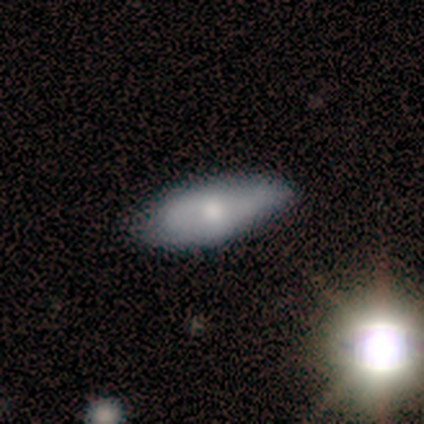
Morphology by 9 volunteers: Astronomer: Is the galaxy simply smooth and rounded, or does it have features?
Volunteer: smooth — 78%.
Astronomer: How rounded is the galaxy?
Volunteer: in between — 100%.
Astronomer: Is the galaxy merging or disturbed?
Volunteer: none — 67%.